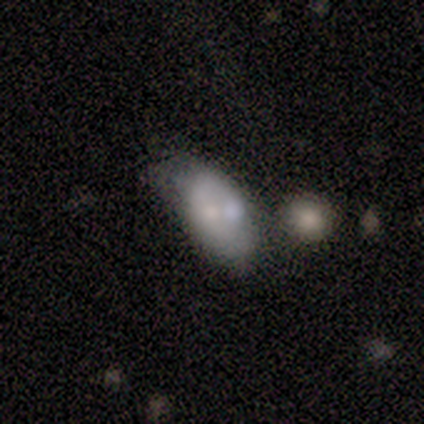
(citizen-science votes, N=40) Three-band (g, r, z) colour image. It shows a smooth galaxy with no disk features (48%) that is in between round and cigar-shaped (100%). Merging: minor disturbance (44%).